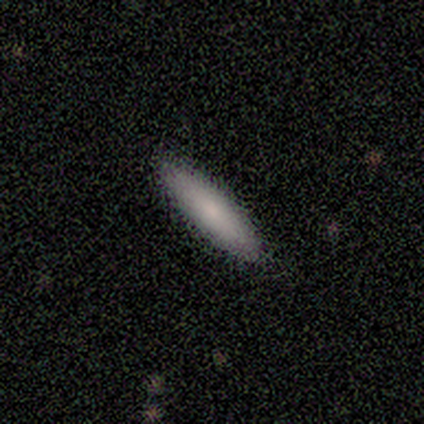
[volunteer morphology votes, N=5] Q: Smooth or featured?
A: smooth (100%)
Q: How rounded?
A: cigar-shaped (80%); runner-up: in between (20%)
Q: Merging?
A: none (100%)